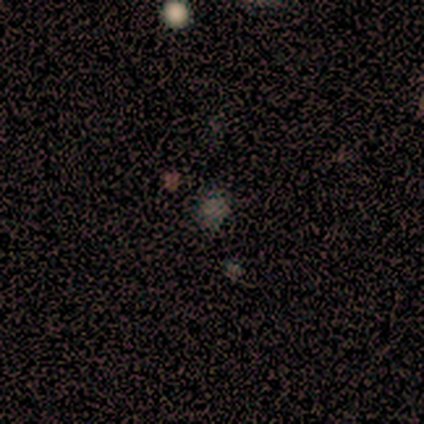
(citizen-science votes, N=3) This appears to be a star or artifact, not a galaxy (67%).